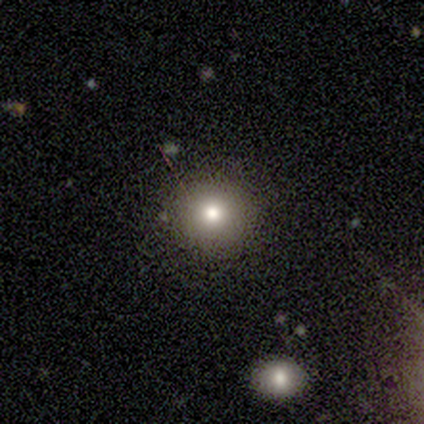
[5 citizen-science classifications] Q: Smooth or featured?
A: smooth (80%); runner-up: star or artifact (20%)
Q: How rounded?
A: round (100%)
Q: Merging?
A: none (100%)